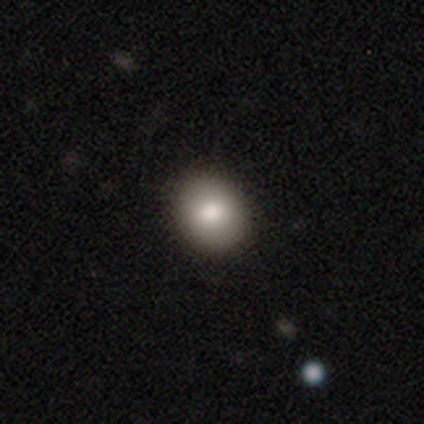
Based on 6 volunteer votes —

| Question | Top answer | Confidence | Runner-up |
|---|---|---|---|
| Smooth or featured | smooth | 83% | featured or disk (17%) |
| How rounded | round | 60% | in between (40%) |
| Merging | none | 100% | — |